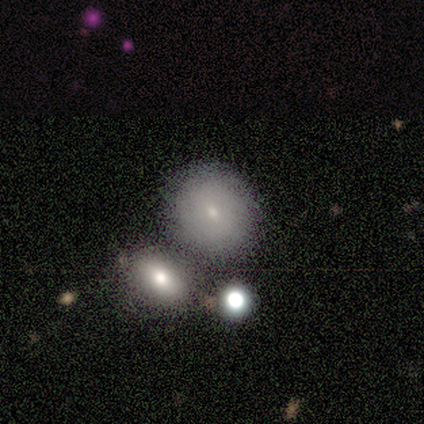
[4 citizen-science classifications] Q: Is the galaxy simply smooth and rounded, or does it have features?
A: smooth — 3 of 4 (75%).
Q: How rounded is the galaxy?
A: round — 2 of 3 (67%).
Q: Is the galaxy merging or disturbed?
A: none — 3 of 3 (100%).